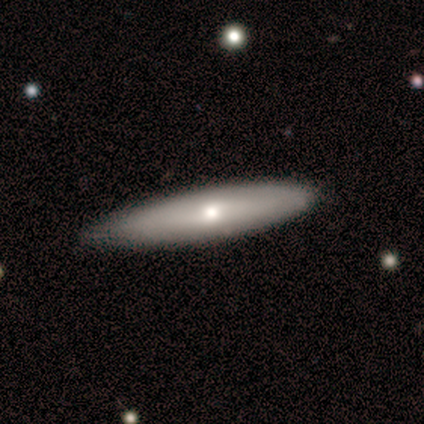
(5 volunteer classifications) A smooth galaxy with no disk features (80%) that is cigar-shaped (75%). Merging: none (100%).